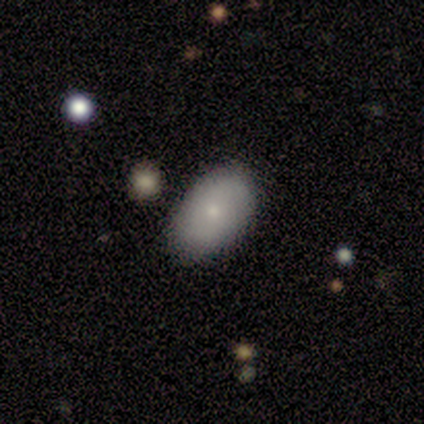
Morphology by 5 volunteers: smooth 100%, featured or disk 0%, star or artifact 0%. Down the decision tree: how rounded — in between (100%); merging — none (80%).